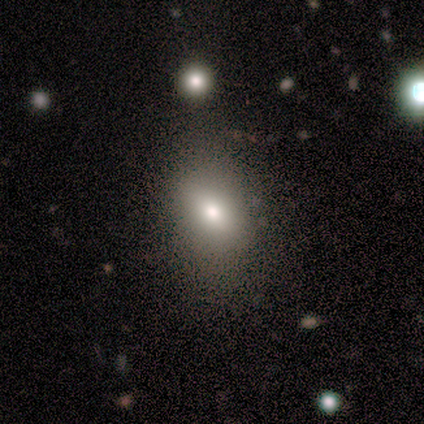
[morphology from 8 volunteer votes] Volunteers were most divided on "smooth or featured": smooth: 50%, featured or disk: 25%, star or artifact: 25%. More confident: how rounded — in between (75%); merging — minor disturbance (67%).